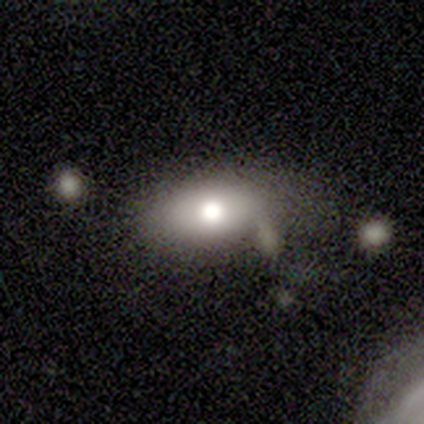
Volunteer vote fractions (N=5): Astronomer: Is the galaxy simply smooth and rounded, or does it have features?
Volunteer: featured or disk — 60% (runner-up: smooth, 40%).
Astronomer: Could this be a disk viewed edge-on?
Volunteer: no — 100%.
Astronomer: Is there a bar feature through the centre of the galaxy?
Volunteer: no — 100%.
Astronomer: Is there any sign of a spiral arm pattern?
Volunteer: no — 100%.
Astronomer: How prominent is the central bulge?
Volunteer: large — 67%.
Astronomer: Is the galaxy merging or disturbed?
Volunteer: none — 60% (runner-up: minor disturbance, 40%).